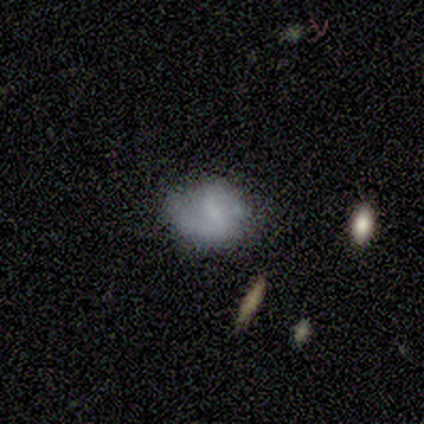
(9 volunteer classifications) Overall: smooth (44%, tied with featured or disk). How rounded: round (50%, tied with in between). Merging: none (62%; minor disturbance 25%).